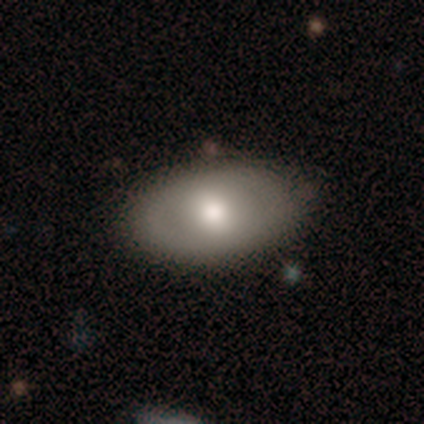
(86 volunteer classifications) smooth-or-featured: smooth: 58% | featured or disk: 34% | star or artifact: 8%
  how-rounded: in between: 84% | round: 16% | cigar-shaped: 0%
  merging: none: 73% | minor disturbance: 22% | major disturbance: 4% | merger: 1%